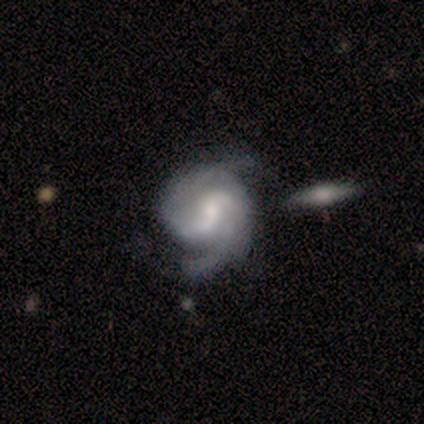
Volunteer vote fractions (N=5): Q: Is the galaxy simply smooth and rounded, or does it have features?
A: featured or disk — 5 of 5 (100%).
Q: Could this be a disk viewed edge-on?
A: no — 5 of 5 (100%).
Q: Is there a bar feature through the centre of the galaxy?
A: weak — 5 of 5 (100%).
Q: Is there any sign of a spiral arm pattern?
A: yes — 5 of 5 (100%).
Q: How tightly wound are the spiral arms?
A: tight — 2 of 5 (40%, tied with medium).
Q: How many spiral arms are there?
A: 2 — 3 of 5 (60%).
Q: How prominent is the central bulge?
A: moderate — 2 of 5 (40%).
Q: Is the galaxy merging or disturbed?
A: none — 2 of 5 (40%, tied with merger).